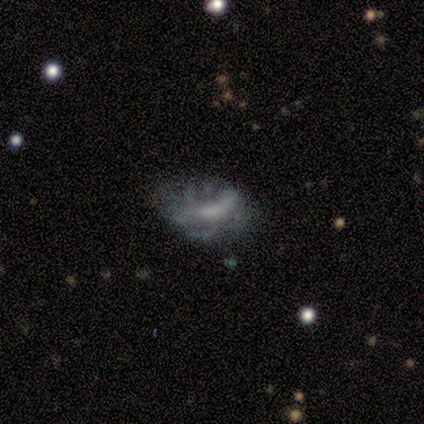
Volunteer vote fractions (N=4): Smooth or featured? featured or disk (100%)
Edge-on disk? no (100%)
Bar? weak (75%)
Spiral arms? yes (75%)
Spiral winding? loose (67%)
Spiral arm count? 1 (33%, tied with 2 and can't tell)
Bulge size? small (75%)
Merging? minor disturbance (50%)